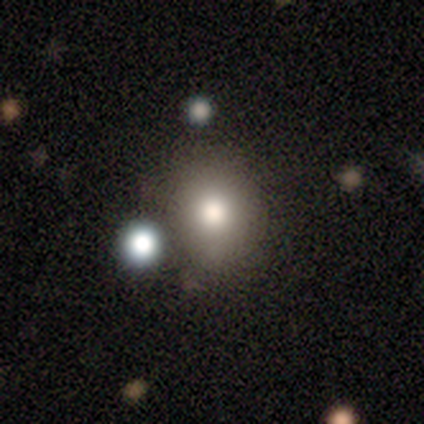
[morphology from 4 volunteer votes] This appears to be a smooth galaxy with no disk features (75%) that is round (67%). Merging: none (50%).